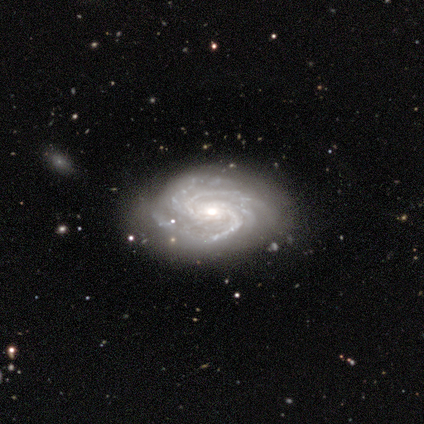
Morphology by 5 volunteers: Smooth or featured? 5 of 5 (100%) said featured or disk. Edge-on disk? 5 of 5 (100%) said no. Bar? 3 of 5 (60%) said no. Spiral arms? 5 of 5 (100%) said yes. Spiral winding? 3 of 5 (60%) said medium. Spiral arm count? 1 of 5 (20%, tied with 3, 4, more than 4 and can't tell) said 2. Bulge size? 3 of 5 (60%) said small. Merging? 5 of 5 (100%) said none.